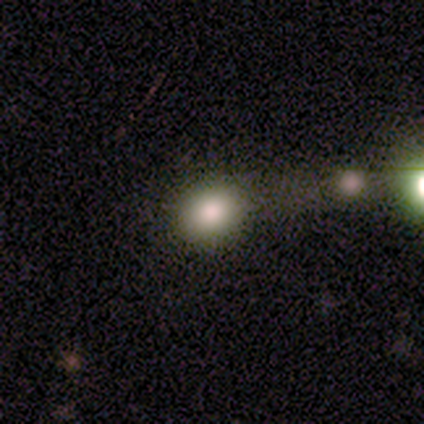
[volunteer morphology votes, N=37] smooth 78%, star or artifact 16%, featured or disk 5%. Down the decision tree: how rounded — round (62%); merging — none (55%).